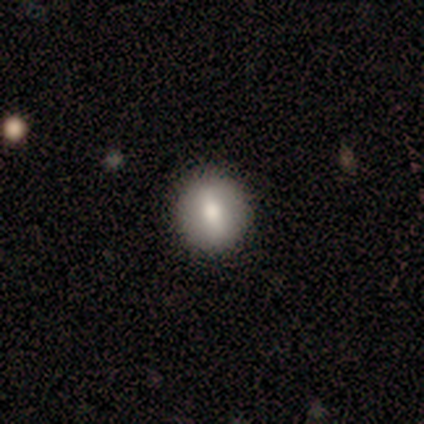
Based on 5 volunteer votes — Volunteers were most divided on "smooth or featured": smooth: 60%, featured or disk: 20%, star or artifact: 20%. More confident: how rounded — round (100%); merging — none (100%).